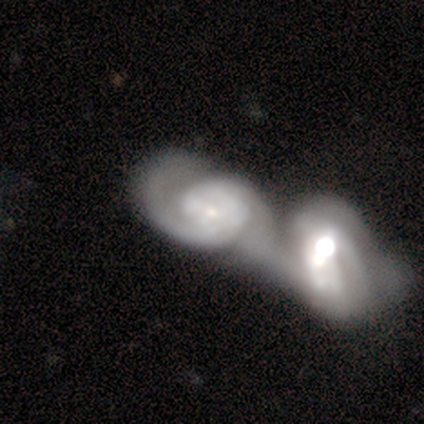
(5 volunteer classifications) smooth_or_featured: featured or disk (p=1.00)
disk_edge_on: no (p=1.00)
bar: no (p=0.80) [alt: weak p=0.20]
has_spiral_arms: yes (p=1.00)
spiral_winding: medium (p=0.40) [tied with: loose p=0.40]
spiral_arm_count: 2 (p=0.80) [alt: 1 p=0.20]
bulge_size: moderate (p=0.40) [tied with: small p=0.40]
merging: merger (p=0.80) [alt: minor disturbance p=0.20]